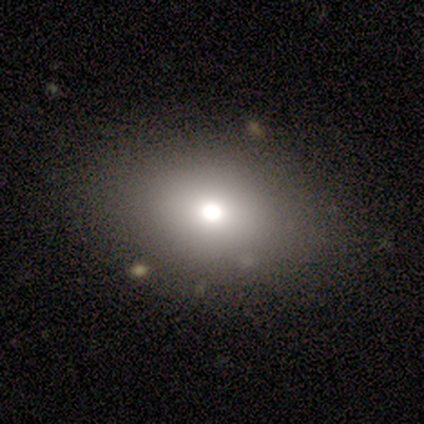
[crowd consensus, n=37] smooth_or_featured: smooth (p=0.70) [alt: star or artifact p=0.19]
how_rounded: in between (p=0.65) [alt: round p=0.35]
merging: none (p=0.90) [alt: minor disturbance p=0.07]